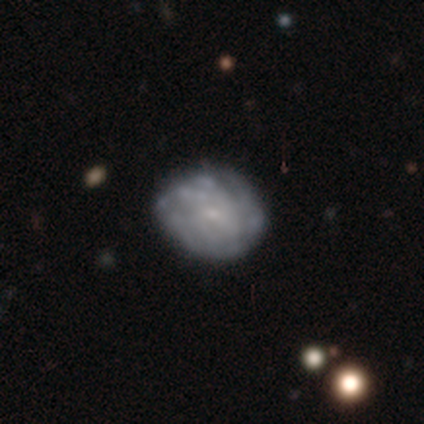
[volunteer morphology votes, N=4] This is possibly a smooth galaxy (50%, tied with featured or disk). How rounded: clearly round (100%). Merging: likely none (75%).